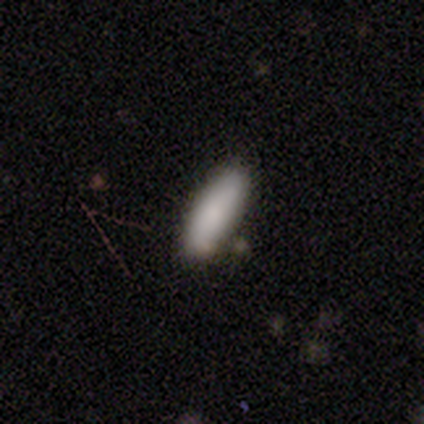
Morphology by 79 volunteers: This appears to be a smooth galaxy with no disk features (86%) that is in between round and cigar-shaped (57%). Merging: none (39%).